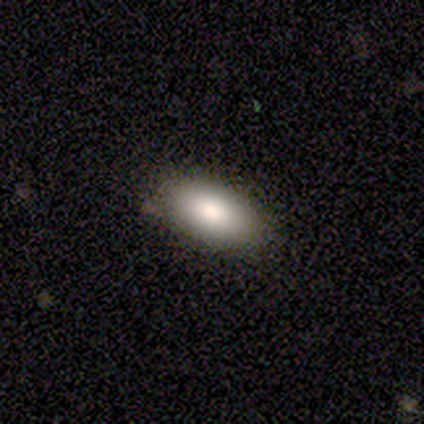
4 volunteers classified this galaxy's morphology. Smooth or featured? smooth (75%)
How rounded? in between (100%)
Merging? none (67%)